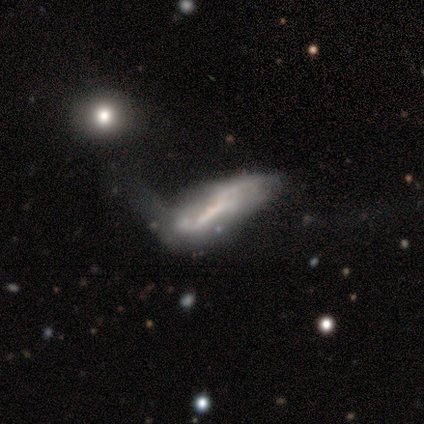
Q: Smooth or featured?
A: featured or disk (75%); runner-up: smooth (25%)
Q: Edge-on disk?
A: no (100%)
Q: Bar?
A: no (67%); runner-up: strong (33%)
Q: Spiral arms?
A: no (100%)
Q: Bulge size?
A: none (67%); runner-up: moderate (33%)
Q: Merging?
A: major disturbance (50%); runner-up: minor disturbance (25%)